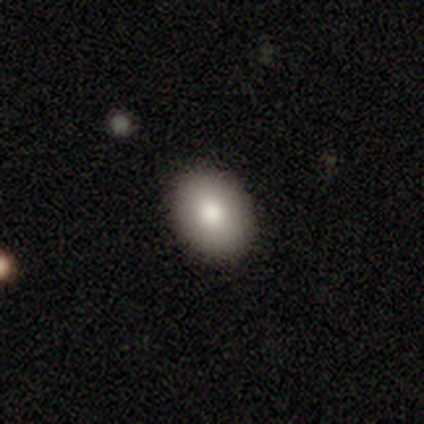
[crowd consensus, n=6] Overall: smooth (67%; star or artifact 33%). How rounded: in between (75%). Merging: none (100%).